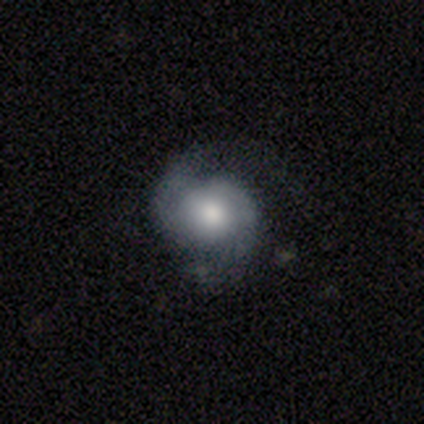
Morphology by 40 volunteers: smooth-or-featured: featured or disk: 85% | smooth: 15% | star or artifact: 0%
  disk-edge-on: no: 100% | yes: 0%
    bar: no: 79% | weak: 21% | strong: 0%
    has-spiral-arms: yes: 100% | no: 0%
      spiral-winding: medium: 44% | loose: 29% | tight: 26%
      spiral-arm-count: 2: 94% | can't tell: 6% | 1: 0% | 3: 0% | 4: 0% | more than 4: 0%
    bulge-size: moderate: 65% | large: 24% | small: 6% | dominant: 3% | none: 3%
  merging: none: 50% | minor disturbance: 15% | major disturbance: 15% | merger: 2%